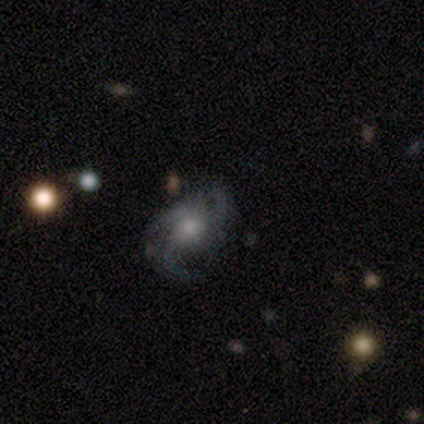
Overall: featured or disk (100%). Edge-on disk: no (100%). Bar: no (100%). Spiral arms: yes (100%). Spiral arm count: 3 (80%). Spiral winding: medium (80%). Bulge size: small (60%; moderate 40%). Merging: none (100%).